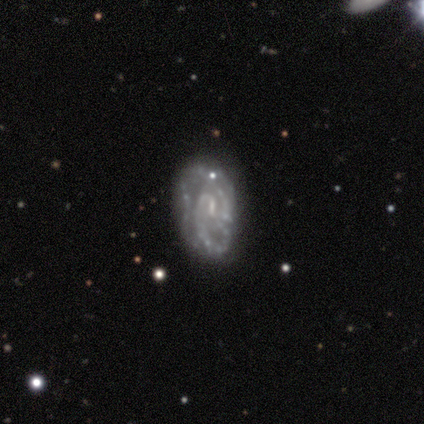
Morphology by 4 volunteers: Smooth or featured? 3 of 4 (75%) said featured or disk. Edge-on disk? 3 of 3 (100%) said no. Bar? 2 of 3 (67%) said weak. Spiral arms? 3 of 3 (100%) said yes. Spiral winding? 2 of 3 (67%) said tight. Spiral arm count? 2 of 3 (67%) said 2. Bulge size? 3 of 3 (100%) said small. Merging? 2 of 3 (67%) said none.